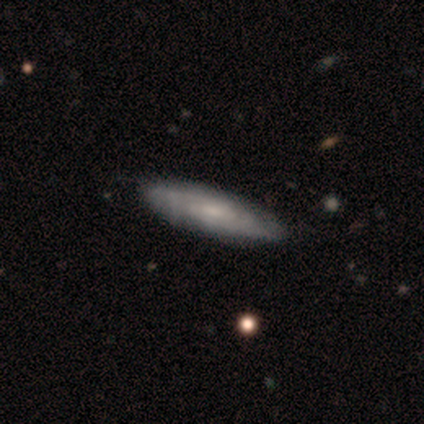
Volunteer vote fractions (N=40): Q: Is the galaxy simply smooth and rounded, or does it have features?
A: featured or disk — 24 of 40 (60%).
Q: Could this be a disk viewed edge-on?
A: no — 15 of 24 (62%).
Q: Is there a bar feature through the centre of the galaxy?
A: no — 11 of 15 (73%).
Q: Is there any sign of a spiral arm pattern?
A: yes — 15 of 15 (100%).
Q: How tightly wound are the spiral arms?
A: tight — 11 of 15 (73%).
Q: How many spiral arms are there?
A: can't tell — 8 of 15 (53%).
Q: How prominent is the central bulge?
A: small — 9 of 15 (60%).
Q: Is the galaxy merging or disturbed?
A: none — 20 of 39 (51%).